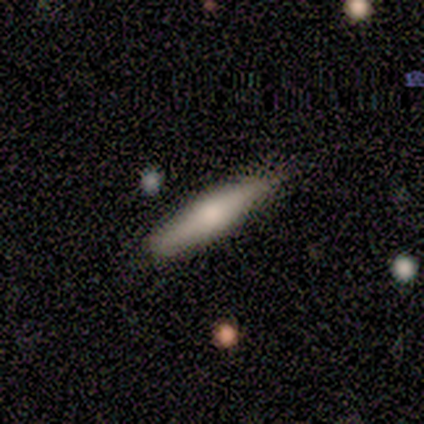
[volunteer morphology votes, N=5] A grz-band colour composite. It shows a smooth galaxy with no disk features (100%) that is cigar-shaped (100%). Merging: none (80%).